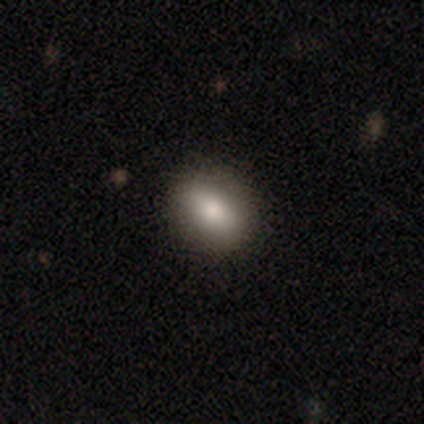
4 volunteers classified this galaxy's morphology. A smooth galaxy with no disk features (100%) that is in between round and cigar-shaped (75%).

Vote fractions:
- Smooth or featured? smooth: 100% / featured or disk: 0% / star or artifact: 0%
- How rounded? in between: 75% / round: 25% / cigar-shaped: 0%
- Merging? none: 50% (tied) / minor disturbance: 50% (tied) / major disturbance: 0% / merger: 0%